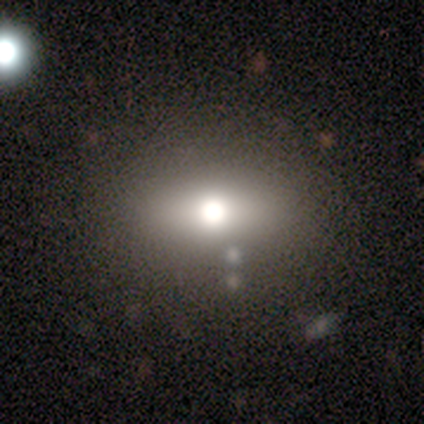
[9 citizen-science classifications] smooth 56%, featured or disk 33%, star or artifact 11%. Down the decision tree: how rounded — in between (80%); merging — none (100%).